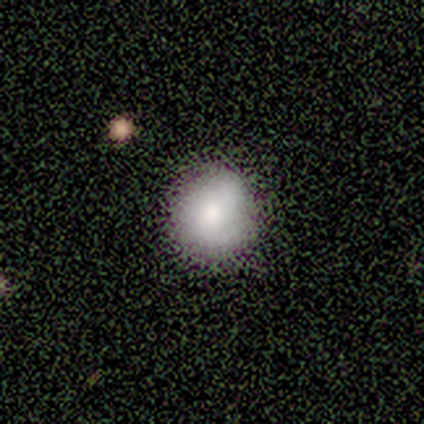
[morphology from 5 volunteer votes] smooth-or-featured: smooth: 60% | star or artifact: 40% | featured or disk: 0%
  how-rounded: round: 100% | in between: 0% | cigar-shaped: 0%
  merging: none: 100% | minor disturbance: 0% | major disturbance: 0% | merger: 0%